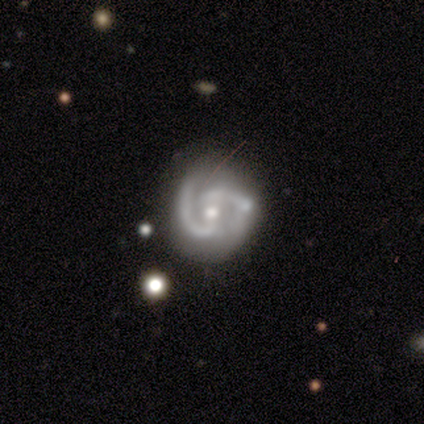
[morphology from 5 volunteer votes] Q: Smooth or featured?
A: featured or disk (100%)
Q: Edge-on disk?
A: no (100%)
Q: Bar?
A: weak (60%); runner-up: strong (20%)
Q: Spiral arms?
A: yes (100%)
Q: Spiral winding?
A: tight (40%); tied with: medium (40%)
Q: Spiral arm count?
A: 2 (60%); runner-up: 3 (40%)
Q: Bulge size?
A: small (60%); runner-up: moderate (40%)
Q: Merging?
A: none (60%); runner-up: minor disturbance (40%)